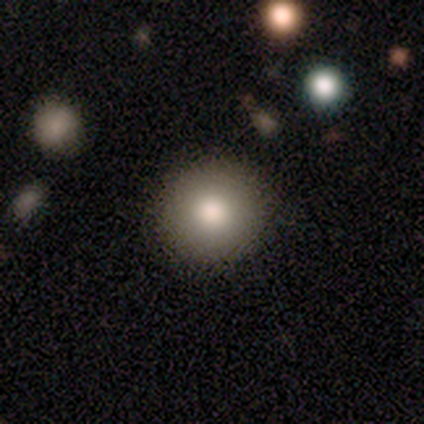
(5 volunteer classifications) Morphology: type=smooth (80%); roundness=round (100%); merging=none (80%).